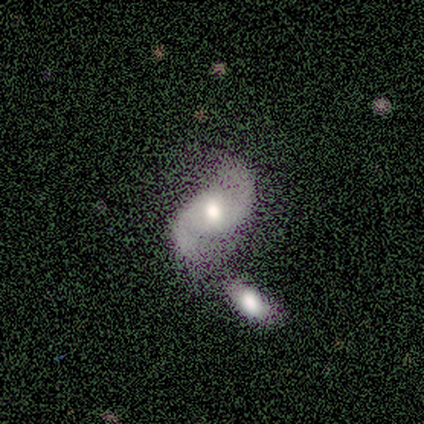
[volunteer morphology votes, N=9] Smooth or featured? featured or disk (89%)
Edge-on disk? no (88%)
Bar? weak (57%)
Spiral arms? yes (100%)
Spiral winding? medium (43%, tied with loose)
Spiral arm count? 2 (100%)
Bulge size? moderate (71%)
Merging? merger (56%)